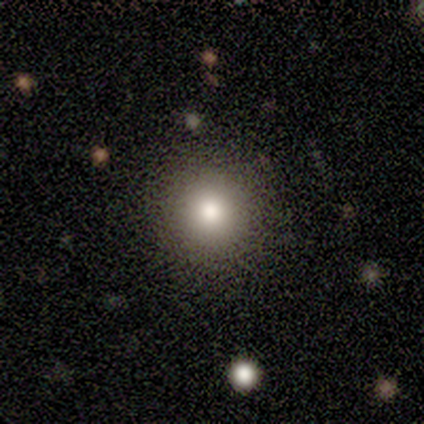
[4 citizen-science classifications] Smooth or featured?
  - featured or disk: 75% *
  - smooth: 25%
  - star or artifact: 0%
Edge-on disk?
  - no: 100% *
  - yes: 0%
Bar?
  - no: 67% *
  - weak: 33%
  - strong: 0%
Spiral arms?
  - no: 100% *
  - yes: 0%
Bulge size?
  - moderate: 67% *
  - small: 33%
  - dominant: 0%
  - large: 0%
  - none: 0%
Merging?
  - none: 100% *
  - minor disturbance: 0%
  - major disturbance: 0%
  - merger: 0%